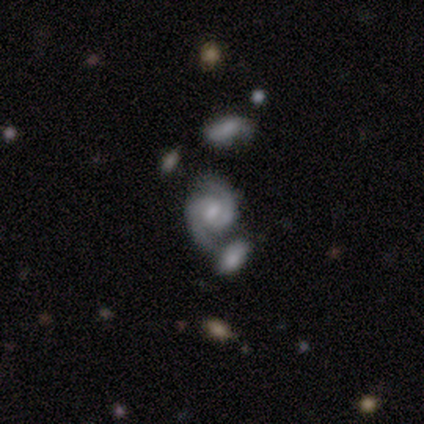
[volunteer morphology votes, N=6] smooth_or_featured: featured or disk (p=0.67) [alt: smooth p=0.17]
disk_edge_on: no (p=1.00)
bar: no (p=0.75) [alt: weak p=0.25]
has_spiral_arms: yes (p=1.00)
spiral_winding: medium (p=0.50) [alt: tight p=0.25]
spiral_arm_count: 2 (p=0.50) [alt: 1 p=0.25]
bulge_size: small (p=0.50) [alt: moderate p=0.25]
merging: major disturbance (p=0.60) [alt: none p=0.40]